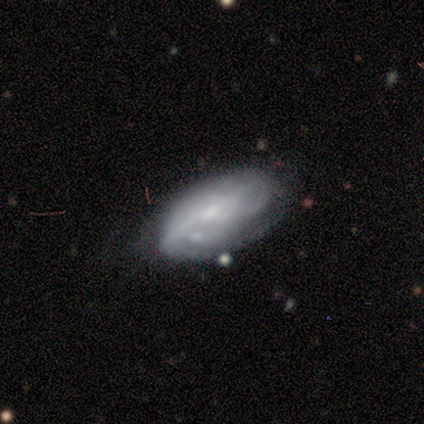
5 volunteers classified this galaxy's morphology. This appears to be a featured or disk galaxy (80%) with no bar (100%), medium (100%) spiral arms (100%) and a small central bulge (50%). Merging: minor disturbance (60%).